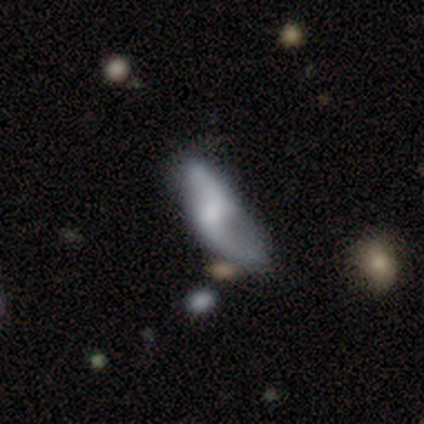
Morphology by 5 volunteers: This is clearly a featured or disk galaxy (80%). It is clearly not viewed edge-on (100%). Bar: clearly no (100%). Spiral arm pattern: possibly yes (50%, tied with no). Spiral arm count: clearly 2 (100%). Spiral winding: clearly loose (100%). Central bulge: possibly moderate (50%). Merging: marginally none (40%, tied with minor disturbance).